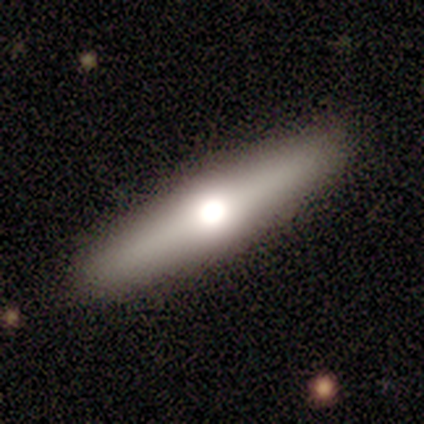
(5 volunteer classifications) This is likely a smooth galaxy (60%). How rounded: clearly cigar-shaped (100%). Merging: clearly none (100%).